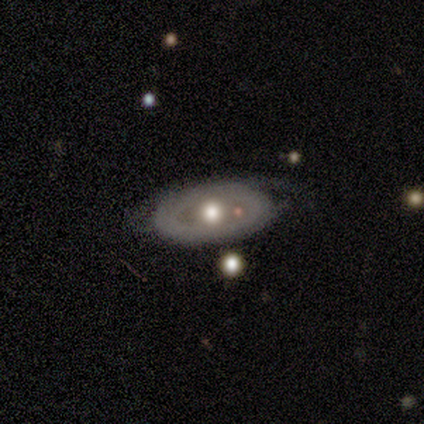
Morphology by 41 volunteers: A featured or disk galaxy (71%) with no bar (100%), no spiral arms (79%) and a moderate central bulge (79%). Merging: none (51%).